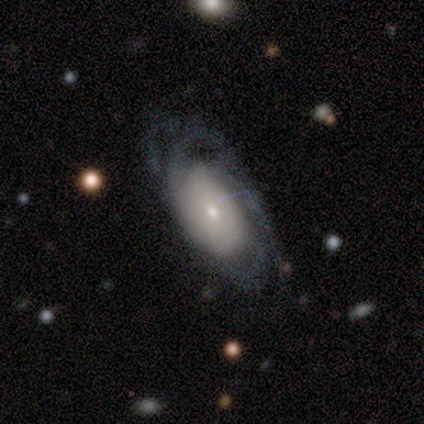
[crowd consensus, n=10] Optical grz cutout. It shows a featured or disk galaxy (60%) with no bar (100%), tight (50%) spiral arms (100%) and a small central bulge (50%). Merging: none (67%).